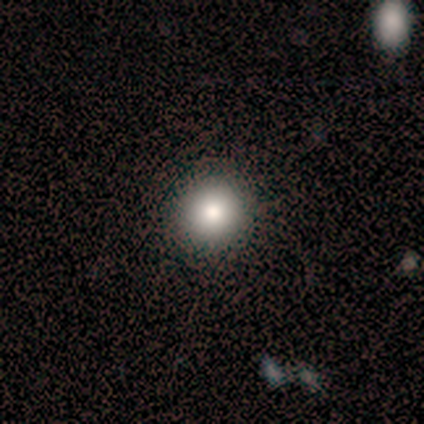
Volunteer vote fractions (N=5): Smooth or featured: smooth — 100%
How rounded: round — 100%
Merging: none — 100%